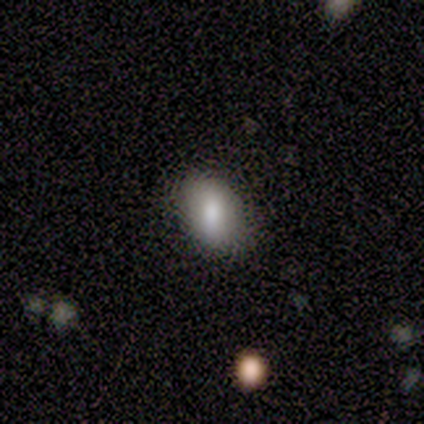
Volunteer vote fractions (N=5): A smooth galaxy with no disk features (100%) that is in between round and cigar-shaped (100%). Merging: none (80%).